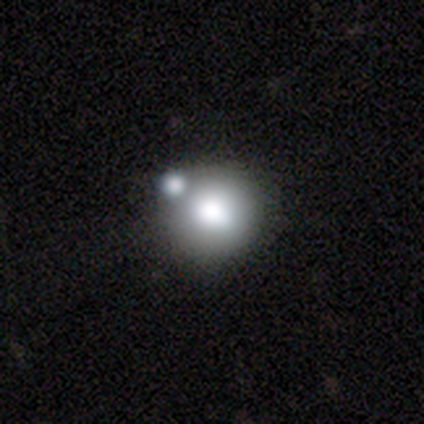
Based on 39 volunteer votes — smooth 82%, featured or disk 15%, star or artifact 3%. Down the decision tree: how rounded — round (97%); merging — merger (34%).